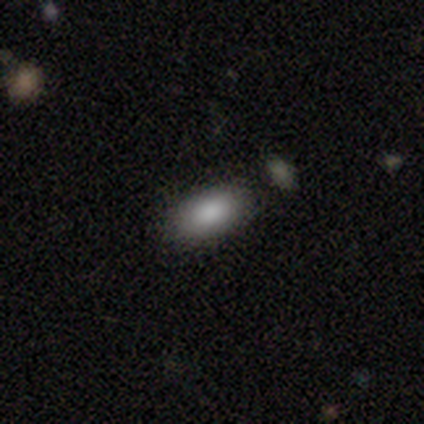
This appears to be a smooth galaxy with no disk features (75%) that is in between round and cigar-shaped (100%). Merging: none (100%).